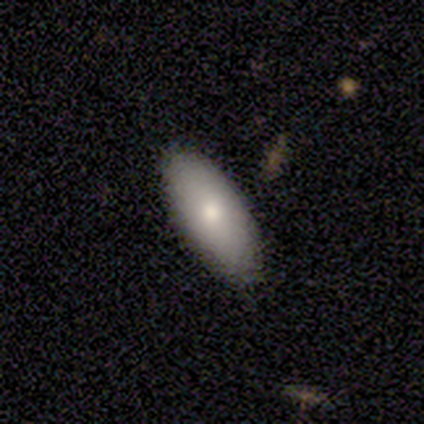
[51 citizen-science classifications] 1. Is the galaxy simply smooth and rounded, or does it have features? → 78% smooth, 16% featured or disk, 6% star or artifact.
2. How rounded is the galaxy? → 98% in between, 2% cigar-shaped, 0% round.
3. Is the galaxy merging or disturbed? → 90% none, 10% minor disturbance, 0% major disturbance, 0% merger.